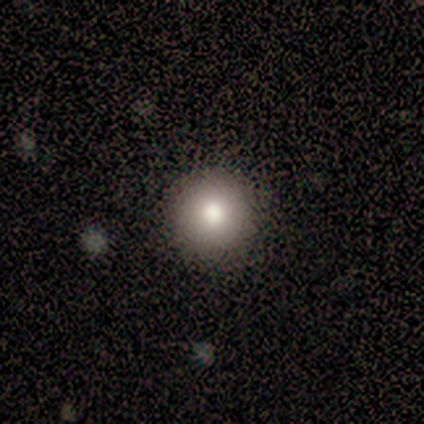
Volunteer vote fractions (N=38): A smooth galaxy with no disk features (76%) that is round (100%).

Vote fractions:
- Smooth or featured? smooth: 76% / star or artifact: 13% / featured or disk: 11%
- How rounded? round: 100% / in between: 0% / cigar-shaped: 0%
- Merging? none: 97% / minor disturbance: 3% / major disturbance: 0% / merger: 0%